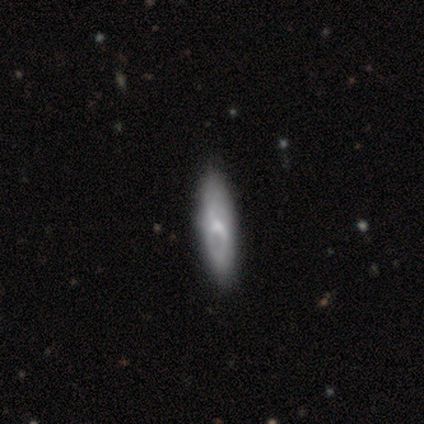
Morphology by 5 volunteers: Overall: smooth (80%). How rounded: in between (50%, tied with cigar-shaped). Merging: none (60%; minor disturbance 40%).